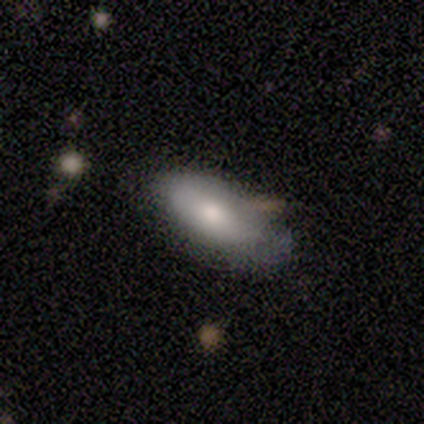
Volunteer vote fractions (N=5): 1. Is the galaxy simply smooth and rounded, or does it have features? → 100% smooth, 0% featured or disk, 0% star or artifact.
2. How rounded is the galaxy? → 100% in between, 0% round, 0% cigar-shaped.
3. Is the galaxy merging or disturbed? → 80% none, 20% minor disturbance, 0% major disturbance, 0% merger.